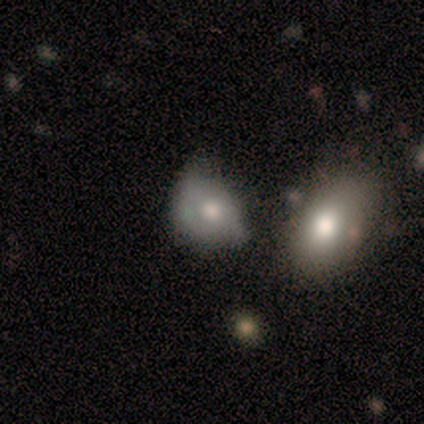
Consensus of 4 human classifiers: smooth-or-featured: featured or disk: 50% | smooth: 25% | star or artifact: 25%
  disk-edge-on: no: 100% | yes: 0%
    bar: no: 100% | strong: 0% | weak: 0%
    has-spiral-arms: no: 100% | yes: 0%
    bulge-size: large: 50% (tied) | moderate: 50% (tied) | dominant: 0% | small: 0% | none: 0%
  merging: none: 67% | merger: 33% | minor disturbance: 0% | major disturbance: 0%